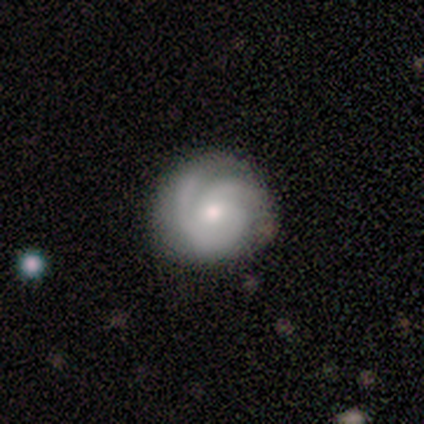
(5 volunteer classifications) A featured or disk galaxy (80%) with no bar (50%), 2 (25%, tied with 3, 4 and can't tell) tight (100%) spiral arms (100%) and a small central bulge (75%). Merging: none (75%).